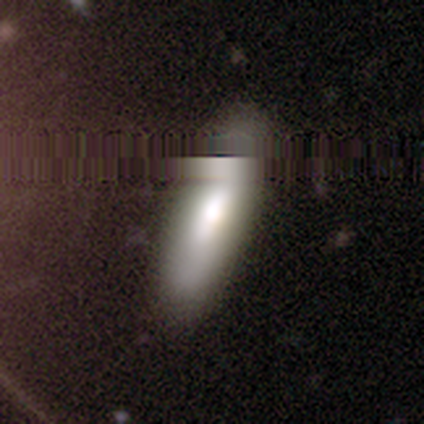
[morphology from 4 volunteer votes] smooth 100%, featured or disk 0%, star or artifact 0%. Down the decision tree: how rounded — in between (75%); merging — none (75%).